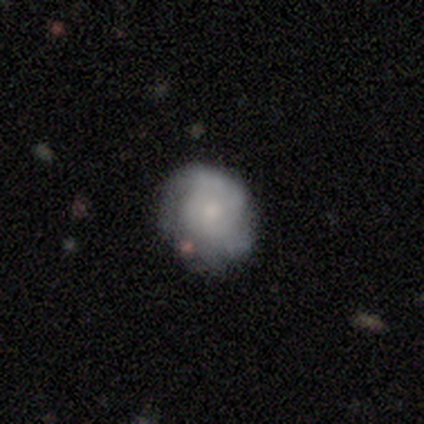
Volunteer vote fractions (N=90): featured or disk 53%, smooth 40%, star or artifact 7%. Down the decision tree: edge-on disk — no (100%); bar — no (83%); spiral arms — yes (71%); spiral arm count — can't tell (56%); spiral winding — tight (68%); bulge size — small (62%); merging — none (61%).